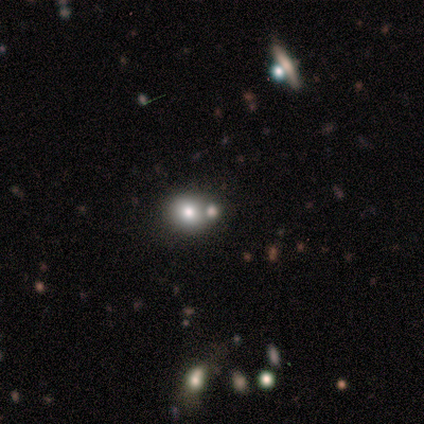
Volunteers were most divided on "merging": none: 60%, major disturbance: 20%, merger: 20%, minor disturbance: 0%. More confident: how rounded — round (100%); smooth or featured — smooth (80%).